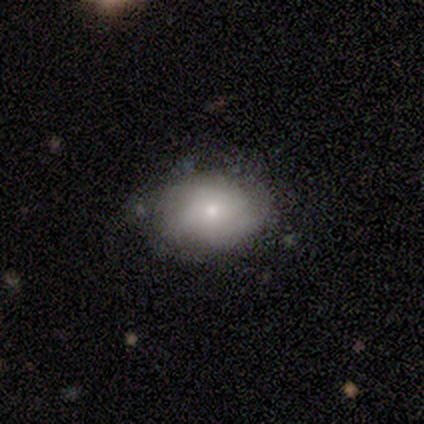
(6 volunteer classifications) Smooth or featured? 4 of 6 (67%) said smooth. How rounded? 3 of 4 (75%) said in between. Merging? 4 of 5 (80%) said none.